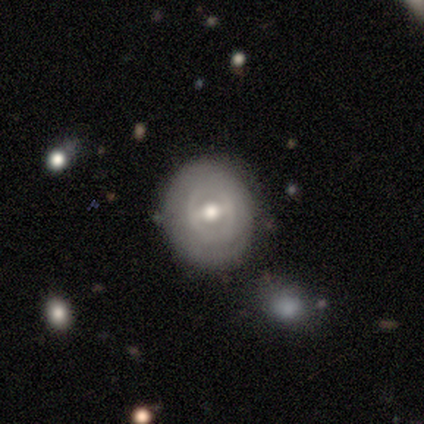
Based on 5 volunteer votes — featured or disk 80%, smooth 20%, star or artifact 0%. Down the decision tree: edge-on disk — no (100%); bar — strong (50%); spiral arms — yes (50%, tied with no); spiral arm count — 4 (50%, tied with can't tell); spiral winding — tight (50%, tied with medium); bulge size — moderate (75%); merging — none (80%).